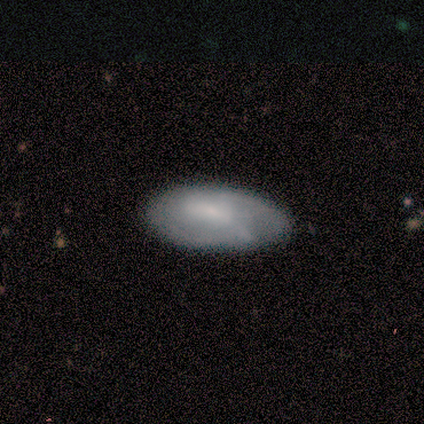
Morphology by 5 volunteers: A smooth galaxy with no disk features (60%) that is in between round and cigar-shaped (67%).

Vote fractions:
- Smooth or featured? smooth: 60% / featured or disk: 40% / star or artifact: 0%
- How rounded? in between: 67% / round: 33% / cigar-shaped: 0%
- Merging? none: 100% / minor disturbance: 0% / major disturbance: 0% / merger: 0%